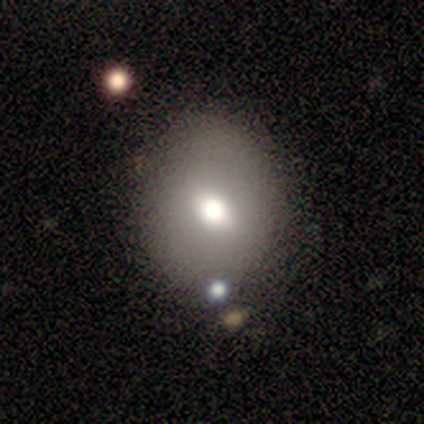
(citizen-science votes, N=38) smooth_or_featured: smooth (p=0.74) [alt: featured or disk p=0.13]
how_rounded: round (p=0.68) [alt: in between p=0.32]
merging: none (p=0.55) [alt: merger p=0.15]